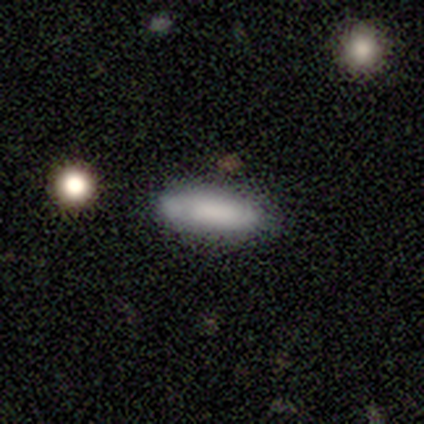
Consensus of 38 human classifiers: A smooth galaxy with no disk features (76%) that is cigar-shaped (72%).

Vote fractions:
- Smooth or featured? smooth: 76% / featured or disk: 16% / star or artifact: 8%
- How rounded? cigar-shaped: 72% / in between: 28% / round: 0%
- Merging? none: 63% / minor disturbance: 23% / major disturbance: 9% / merger: 6%